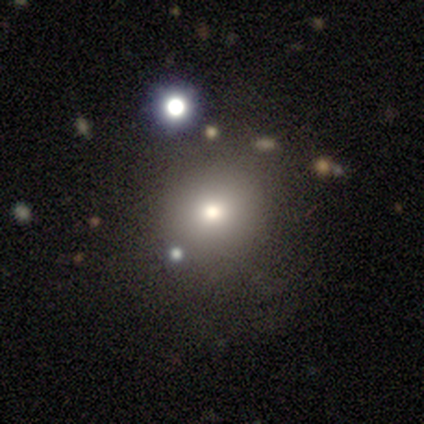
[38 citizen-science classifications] Smooth or featured?
  - smooth: 68% *
  - star or artifact: 18%
  - featured or disk: 13%
How rounded?
  - round: 88% *
  - in between: 12%
  - cigar-shaped: 0%
Merging?
  - none: 84% *
  - minor disturbance: 10%
  - major disturbance: 3%
  - merger: 3%